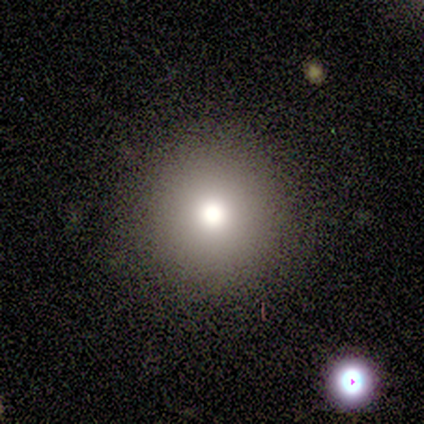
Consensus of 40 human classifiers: Smooth or featured: smooth — 62% (featured or disk — 20%)
How rounded: round — 100%
Merging: none — 91% (minor disturbance — 6%)